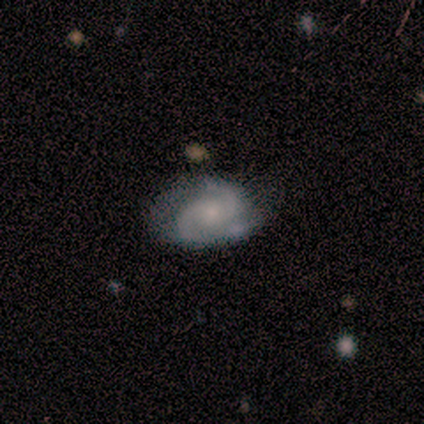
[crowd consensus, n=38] Overall: featured or disk (71%). Edge-on disk: no (96%). Bar: no (62%; weak 38%). Spiral arms: yes (100%). Spiral arm count: 2 (81%). Spiral winding: tight (50%; medium 42%). Bulge size: small (54%; moderate 35%). Merging: none (53%; minor disturbance 41%).